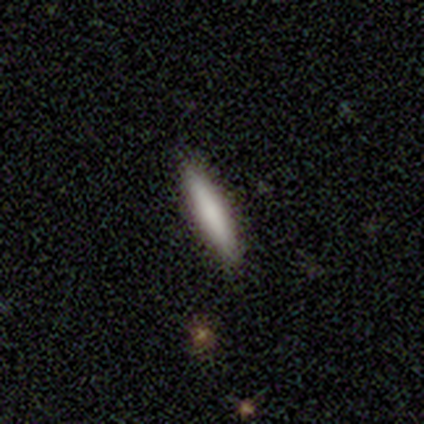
A smooth galaxy with no disk features (81%) that is cigar-shaped (93%).

Vote fractions:
- Smooth or featured? smooth: 81% / featured or disk: 17% / star or artifact: 3%
- How rounded? cigar-shaped: 93% / in between: 7% / round: 0%
- Merging? none: 97% / minor disturbance: 3% / major disturbance: 0% / merger: 0%